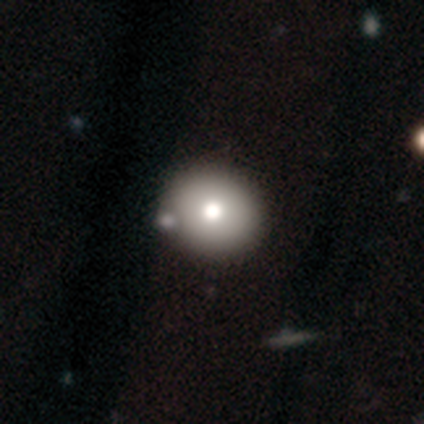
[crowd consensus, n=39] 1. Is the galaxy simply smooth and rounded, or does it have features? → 72% smooth, 21% featured or disk, 8% star or artifact.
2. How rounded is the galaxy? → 79% round, 21% in between, 0% cigar-shaped.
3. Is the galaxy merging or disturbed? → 53% none, 11% merger, 8% minor disturbance, 0% major disturbance.